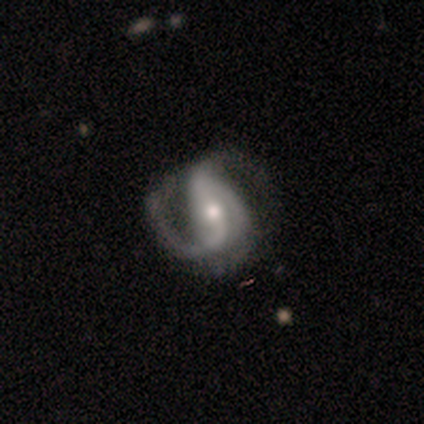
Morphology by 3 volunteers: Smooth or featured? featured or disk (67%)
Edge-on disk? no (100%)
Bar? strong (50%, tied with no)
Spiral arms? yes (50%, tied with no)
Spiral winding? medium (100%)
Spiral arm count? 2 (100%)
Bulge size? moderate (50%, tied with small)
Merging? major disturbance (67%)